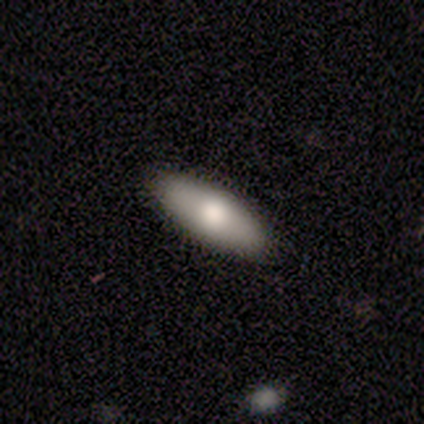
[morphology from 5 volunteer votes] Smooth or featured: smooth — 80% (featured or disk — 20%)
How rounded: in between — 50% (tied with cigar-shaped — 50%)
Merging: none — 100%